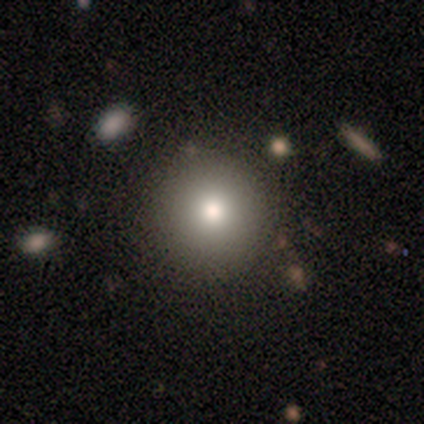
Smooth or featured? smooth (50%, tied with featured or disk)
How rounded? round (67%)
Merging? none (50%, tied with minor disturbance)